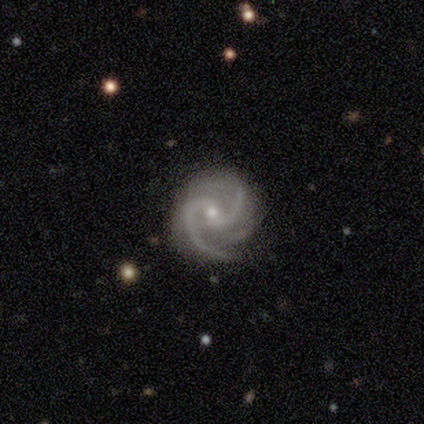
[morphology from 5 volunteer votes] This appears to be a featured or disk galaxy (100%) with no bar (80%), 2 (100%) medium (80%) spiral arms (100%) and a small central bulge (100%). Merging: none (100%).